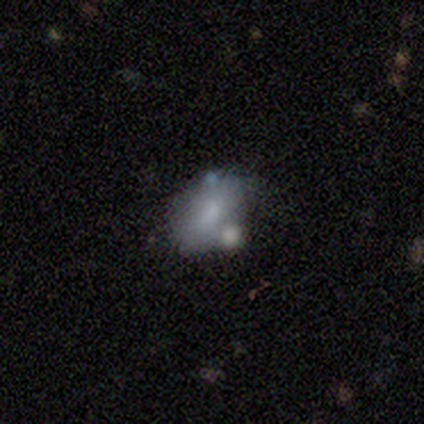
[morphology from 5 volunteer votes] A featured or disk galaxy (60%) with no bar (67%), no spiral arms (100%) and a large central bulge (33%, tied with moderate and small). Merging: none (50%).